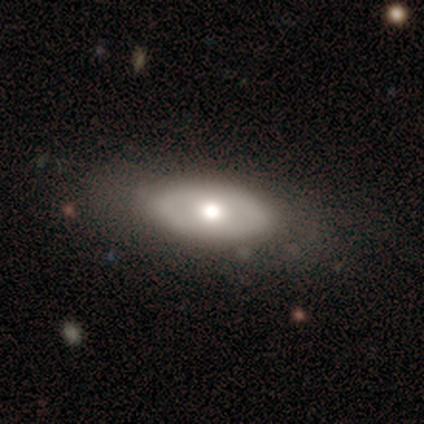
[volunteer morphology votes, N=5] smooth_or_featured: featured or disk (p=0.60) [alt: smooth p=0.40]
disk_edge_on: no (p=0.67) [alt: yes p=0.33]
bar: no (p=1.00)
has_spiral_arms: no (p=1.00)
bulge_size: large (p=0.50) [tied with: moderate p=0.50]
merging: none (p=1.00)